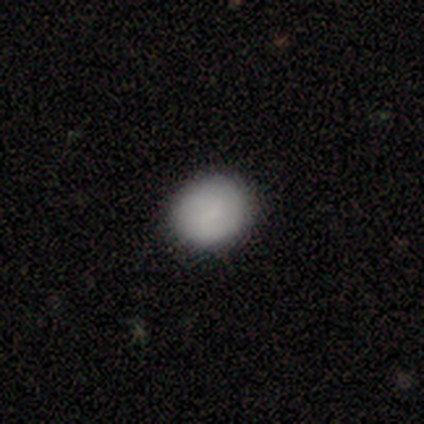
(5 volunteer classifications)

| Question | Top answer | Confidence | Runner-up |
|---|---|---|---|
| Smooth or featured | smooth | 80% | star or artifact (20%) |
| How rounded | round | 75% | in between (25%) |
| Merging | none | 100% | — |